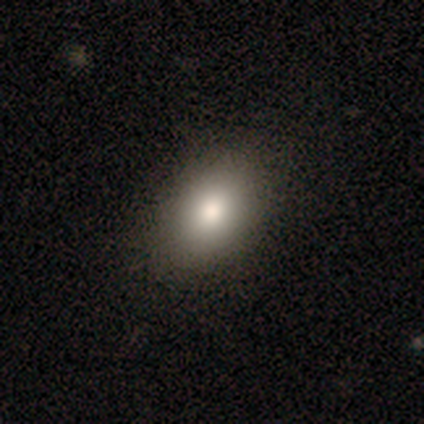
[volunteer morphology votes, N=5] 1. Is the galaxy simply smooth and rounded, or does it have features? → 80% smooth, 20% featured or disk, 0% star or artifact.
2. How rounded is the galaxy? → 75% in between, 25% round, 0% cigar-shaped.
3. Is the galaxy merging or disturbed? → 80% none, 20% minor disturbance, 0% major disturbance, 0% merger.